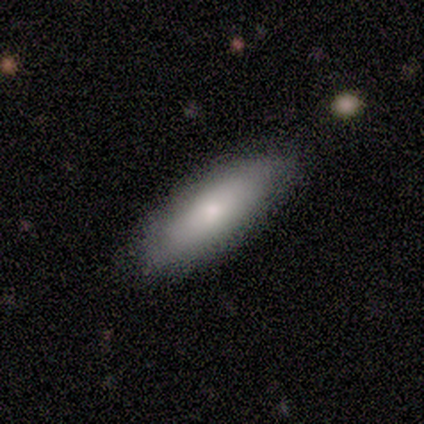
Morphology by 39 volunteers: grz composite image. It shows a smooth galaxy with no disk features (77%) that is in between round and cigar-shaped (57%). Merging: none (86%).